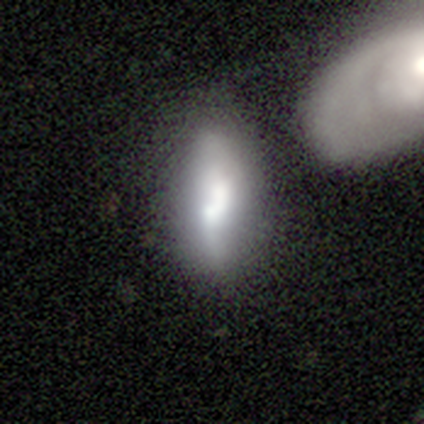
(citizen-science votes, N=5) Smooth or featured: smooth — 60% (featured or disk — 40%)
How rounded: in between — 67% (cigar-shaped — 33%)
Merging: none — 40% (tied with major disturbance — 40%)